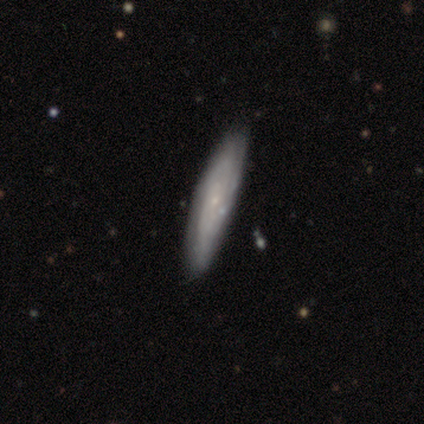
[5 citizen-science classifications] featured or disk 80%, smooth 20%, star or artifact 0%. Down the decision tree: edge-on disk — yes (50%, tied with no); edge-on bulge — none (50%, tied with rounded); merging — none (100%).